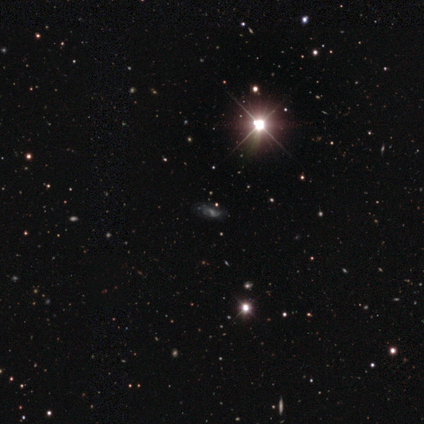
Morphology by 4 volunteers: smooth-or-featured: featured or disk: 75% | star or artifact: 25% | smooth: 0%
  disk-edge-on: no: 100% | yes: 0%
    bar: weak: 100% | strong: 0% | no: 0%
    has-spiral-arms: yes: 100% | no: 0%
      spiral-winding: medium: 67% | loose: 33% | tight: 0%
      spiral-arm-count: 2: 67% | can't tell: 33% | 1: 0% | 3: 0% | 4: 0% | more than 4: 0%
    bulge-size: small: 67% | moderate: 33% | dominant: 0% | large: 0% | none: 0%
  merging: minor disturbance: 67% | none: 33% | major disturbance: 0% | merger: 0%